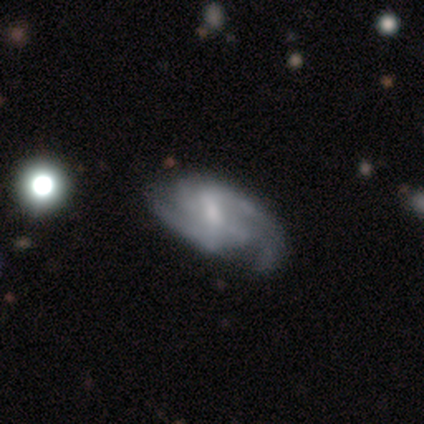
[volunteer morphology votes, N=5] A featured or disk galaxy (100%) with a weak bar (80%), tight (60%) spiral arms (100%) and a small central bulge (40%). Merging: minor disturbance (60%).